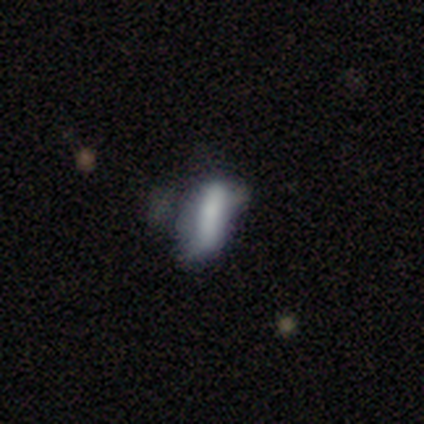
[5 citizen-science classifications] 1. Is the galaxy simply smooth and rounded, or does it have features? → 80% smooth, 20% star or artifact, 0% featured or disk.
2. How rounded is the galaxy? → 75% cigar-shaped, 25% in between, 0% round.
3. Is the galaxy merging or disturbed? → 25% none (tied), 25% minor disturbance (tied), 25% major disturbance (tied), 25% merger (tied).